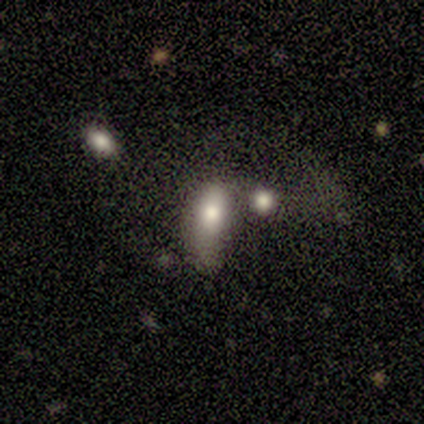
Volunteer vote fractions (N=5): Smooth or featured? smooth (60%)
How rounded? in between (67%)
Merging? none (40%, tied with major disturbance)